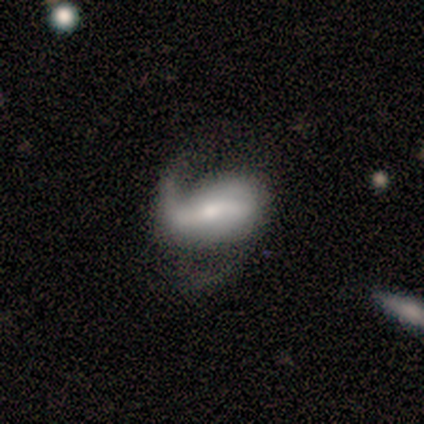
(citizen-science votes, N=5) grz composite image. It shows a featured or disk galaxy (80%) with a strong bar (67%), 1 (50%, tied with 2) loose (100%) spiral arms (67%) and a dominant central bulge (33%, tied with moderate and small). Merging: major disturbance (60%).